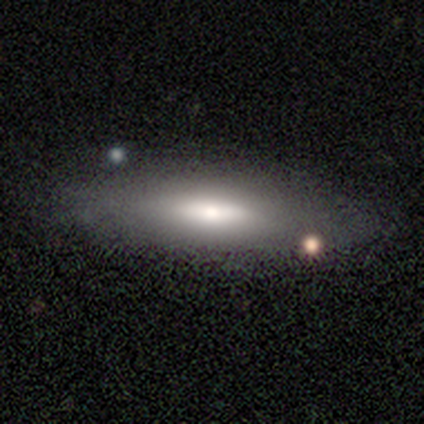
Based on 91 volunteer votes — Smooth or featured: smooth — 67% (featured or disk — 26%)
How rounded: in between — 51% (cigar-shaped — 49%)
Merging: none — 84% (minor disturbance — 12%)